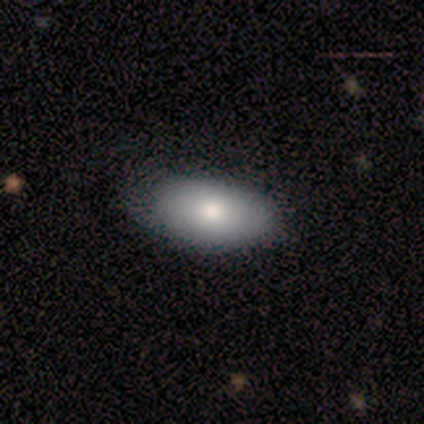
A smooth galaxy with no disk features (100%) that is in between round and cigar-shaped (80%). Merging: none (100%).